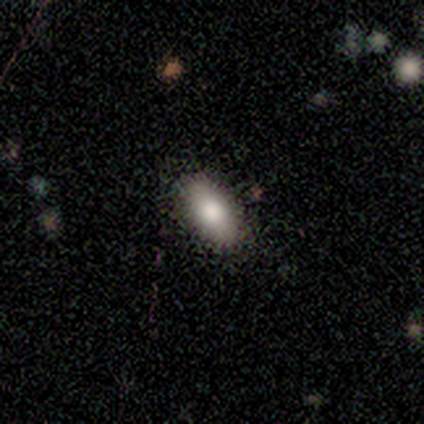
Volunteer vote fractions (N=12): This appears to be a smooth galaxy with no disk features (83%) that is in between round and cigar-shaped (80%). Merging: none (83%).